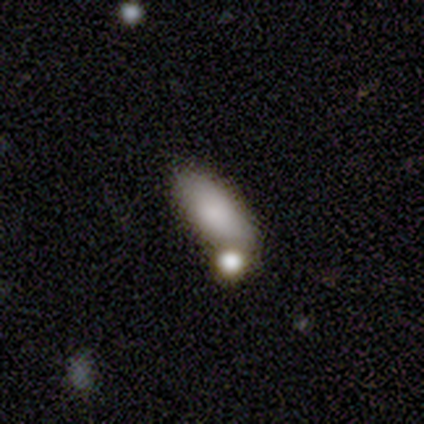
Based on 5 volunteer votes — smooth 100%, featured or disk 0%, star or artifact 0%. Down the decision tree: how rounded — in between (100%); merging — none (60%).